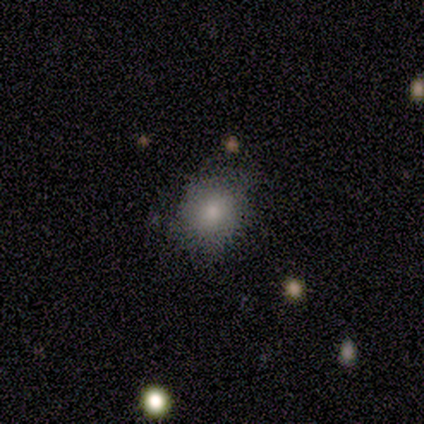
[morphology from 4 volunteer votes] smooth 100%, featured or disk 0%, star or artifact 0%. Down the decision tree: how rounded — round (75%); merging — none (100%).